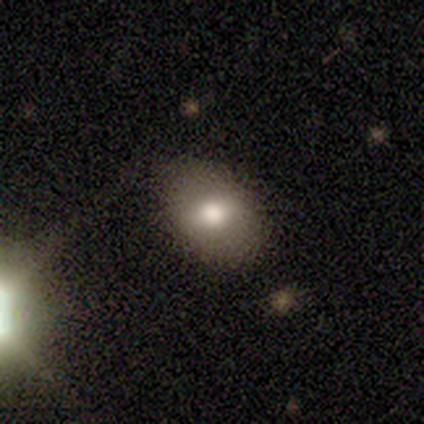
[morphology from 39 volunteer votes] Overall: smooth (67%). How rounded: in between (88%). Merging: none (61%).